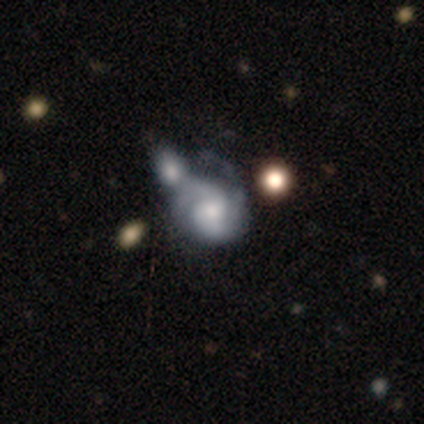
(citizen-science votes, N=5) Q: Smooth or featured?
A: featured or disk (60%); runner-up: smooth (20%)
Q: Edge-on disk?
A: no (100%)
Q: Bar?
A: weak (67%); runner-up: no (33%)
Q: Spiral arms?
A: yes (100%)
Q: Spiral winding?
A: tight (67%); runner-up: medium (33%)
Q: Spiral arm count?
A: 2 (67%); runner-up: can't tell (33%)
Q: Bulge size?
A: moderate (67%); runner-up: small (33%)
Q: Merging?
A: merger (50%); runner-up: minor disturbance (25%)